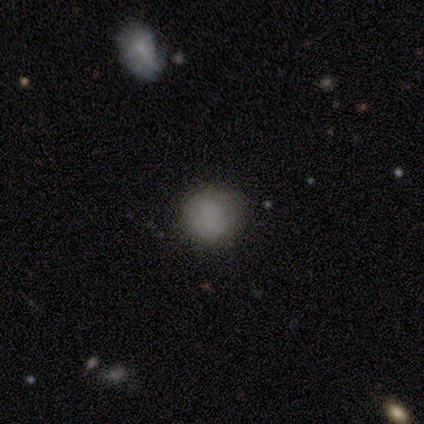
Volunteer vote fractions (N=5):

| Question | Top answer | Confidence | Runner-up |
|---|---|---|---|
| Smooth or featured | smooth | 100% | — |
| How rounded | round | 80% | in between (20%) |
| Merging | none | 100% | — |